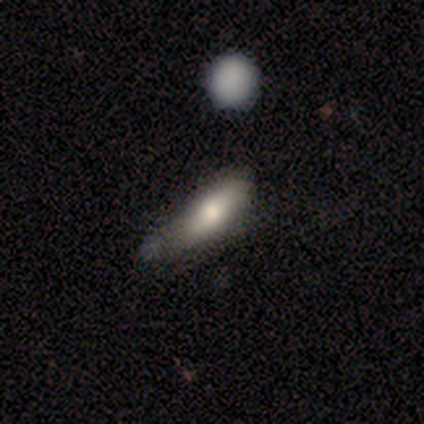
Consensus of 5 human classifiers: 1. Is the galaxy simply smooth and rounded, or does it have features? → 60% smooth, 40% star or artifact, 0% featured or disk.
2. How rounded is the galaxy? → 100% cigar-shaped, 0% round, 0% in between.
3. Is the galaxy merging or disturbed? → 33% none (tied), 33% minor disturbance (tied), 33% major disturbance (tied), 0% merger.